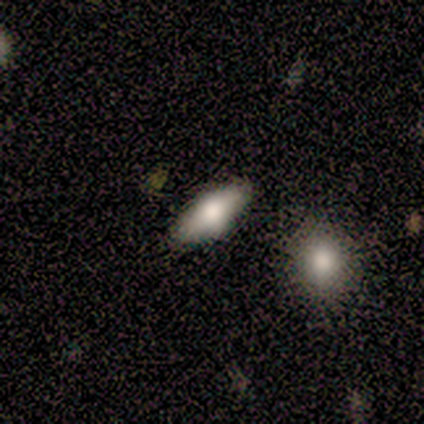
A smooth galaxy with no disk features (100%) that is in between round and cigar-shaped (100%).

Vote fractions:
- Smooth or featured? smooth: 100% / featured or disk: 0% / star or artifact: 0%
- How rounded? in between: 100% / round: 0% / cigar-shaped: 0%
- Merging? none: 60% / minor disturbance: 20% / major disturbance: 20% / merger: 0%